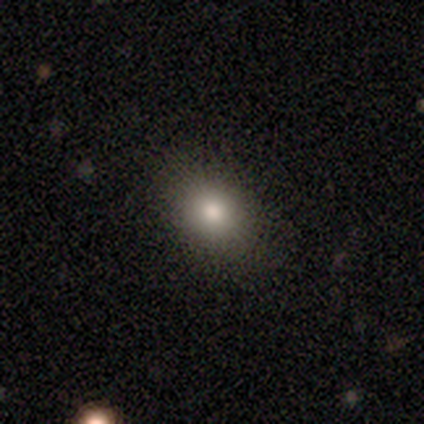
Smooth or featured? smooth (80%)
How rounded? round (50%, tied with in between)
Merging? none (80%)